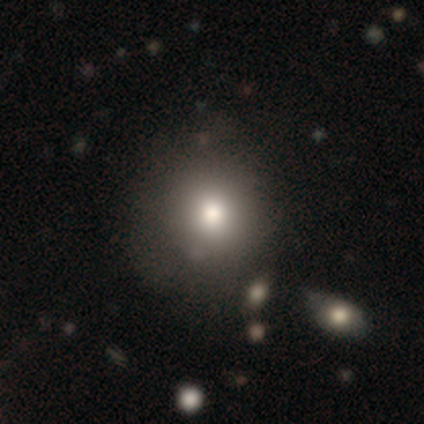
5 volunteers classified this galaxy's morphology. smooth-or-featured: smooth: 100% | featured or disk: 0% | star or artifact: 0%
  how-rounded: round: 60% | in between: 40% | cigar-shaped: 0%
  merging: none: 60% | minor disturbance: 20% | major disturbance: 20% | merger: 0%